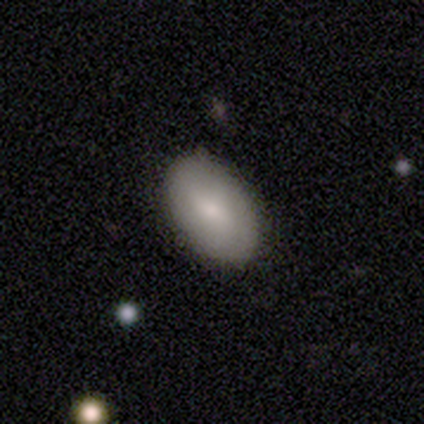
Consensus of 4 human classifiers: smooth-or-featured: smooth: 100% | featured or disk: 0% | star or artifact: 0%
  how-rounded: in between: 100% | round: 0% | cigar-shaped: 0%
  merging: none: 100% | minor disturbance: 0% | major disturbance: 0% | merger: 0%